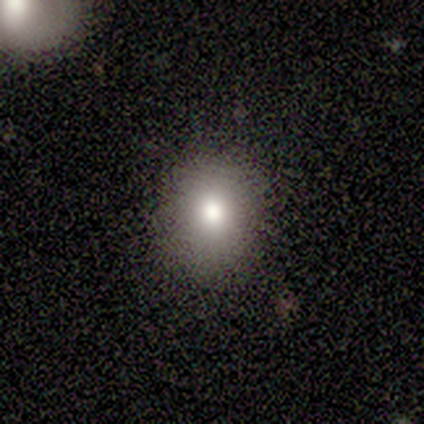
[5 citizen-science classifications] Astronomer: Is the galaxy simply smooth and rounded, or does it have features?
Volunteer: smooth — 100%.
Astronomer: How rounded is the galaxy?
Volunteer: in between — 80%.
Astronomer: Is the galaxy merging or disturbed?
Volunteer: none — 80%.